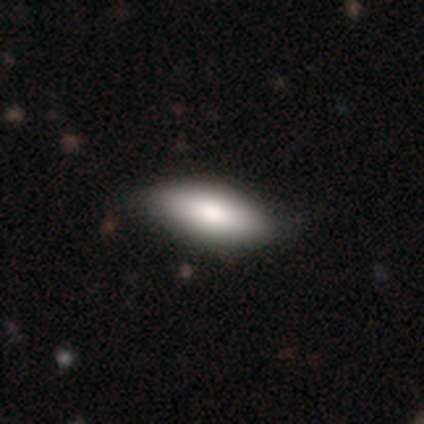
This is clearly a smooth galaxy (83%). How rounded: clearly in between (89%). Merging: marginally none (44%).